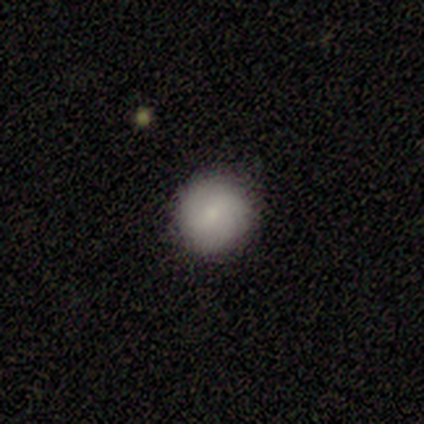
smooth 100%, featured or disk 0%, star or artifact 0%. Down the decision tree: how rounded — round (100%); merging — none (100%).